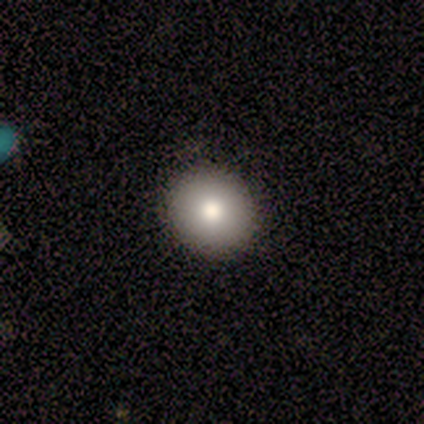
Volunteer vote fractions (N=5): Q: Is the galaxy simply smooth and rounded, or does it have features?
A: smooth — 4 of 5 (80%).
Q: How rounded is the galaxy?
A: round — 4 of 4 (100%).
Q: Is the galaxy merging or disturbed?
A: none — 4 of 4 (100%).